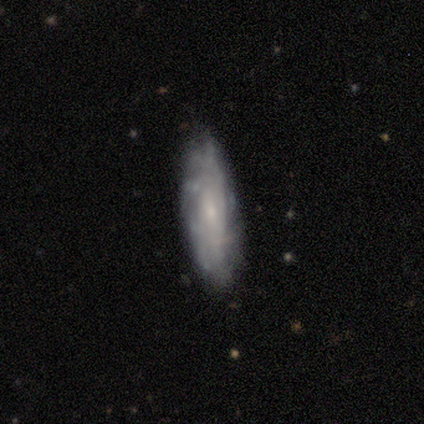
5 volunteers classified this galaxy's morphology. This appears to be a featured or disk galaxy (80%) with no bar (100%), more than 4 (50%, tied with can't tell) tight (100%) spiral arms (67%) and a small central bulge (100%). Merging: minor disturbance (80%).